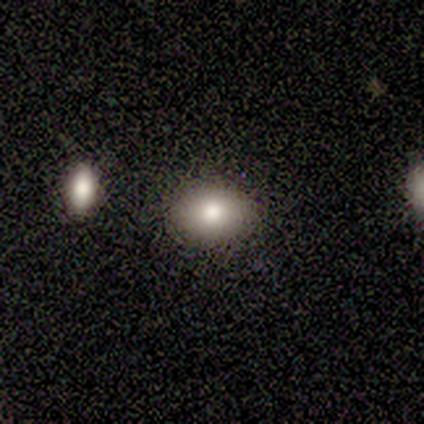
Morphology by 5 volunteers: smooth 100%, featured or disk 0%, star or artifact 0%. Down the decision tree: how rounded — round (60%); merging — none (80%).